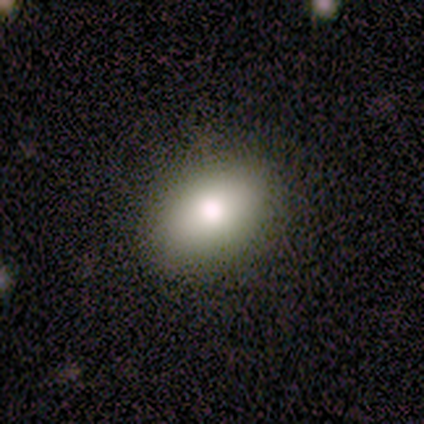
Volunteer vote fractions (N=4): Smooth or featured? 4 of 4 (100%) said smooth. How rounded? 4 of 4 (100%) said in between. Merging? 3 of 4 (75%) said none.